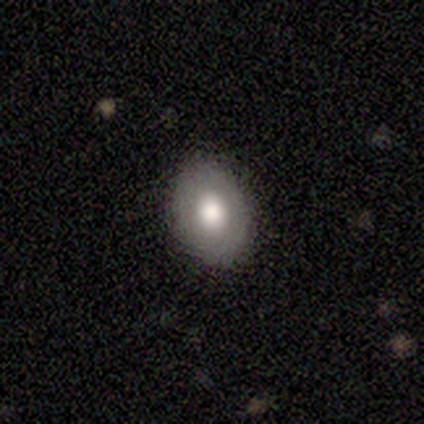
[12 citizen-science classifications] Smooth or featured: smooth — 67% (featured or disk — 25%)
How rounded: in between — 88% (round — 12%)
Merging: none — 73% (minor disturbance — 27%)